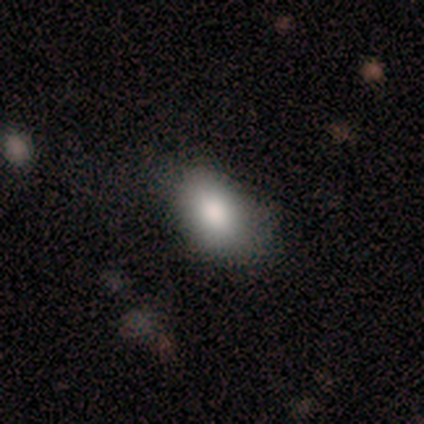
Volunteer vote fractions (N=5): This appears to be a smooth galaxy with no disk features (100%) that is in between round and cigar-shaped (80%). Merging: none (100%).